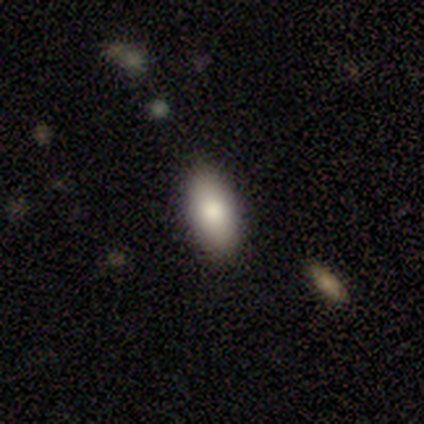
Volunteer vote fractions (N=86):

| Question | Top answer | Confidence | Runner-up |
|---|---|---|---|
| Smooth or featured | smooth | 81% | featured or disk (10%) |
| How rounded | in between | 89% | cigar-shaped (11%) |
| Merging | none | 84% | minor disturbance (11%) |